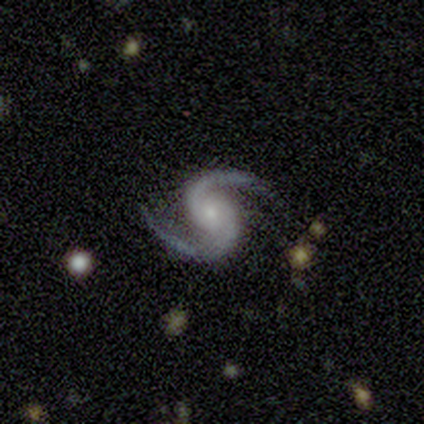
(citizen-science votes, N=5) This is clearly a featured or disk galaxy (100%). It is clearly not viewed edge-on (100%). Bar: clearly no (80%). Spiral arm pattern: clearly yes (100%). Spiral arm count: clearly 2 (100%). Spiral winding: likely loose (60%). Central bulge: likely small (60%). Merging: clearly none (100%).